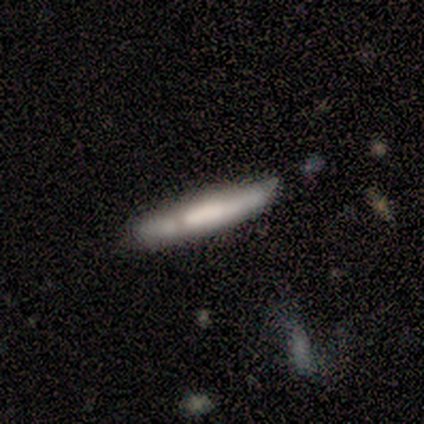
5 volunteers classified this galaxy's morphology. A featured or disk galaxy (60%) viewed edge-on (100%) with a boxy central bulge (33%, tied with none and rounded). Merging: none (60%).